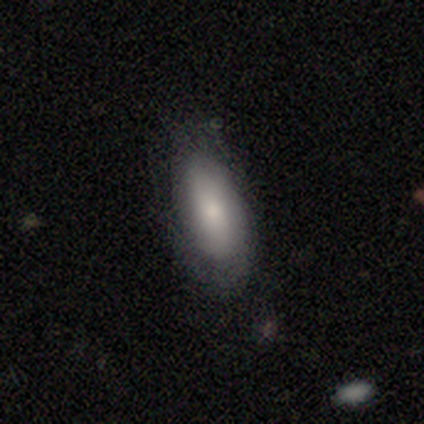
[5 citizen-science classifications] Overall: smooth (80%). How rounded: in between (100%). Merging: minor disturbance (60%; none 40%).